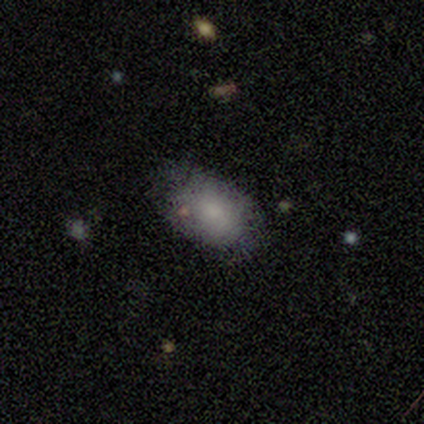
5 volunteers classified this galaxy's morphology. Smooth or featured? 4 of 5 (80%) said smooth. How rounded? 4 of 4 (100%) said in between. Merging? 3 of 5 (60%) said none.